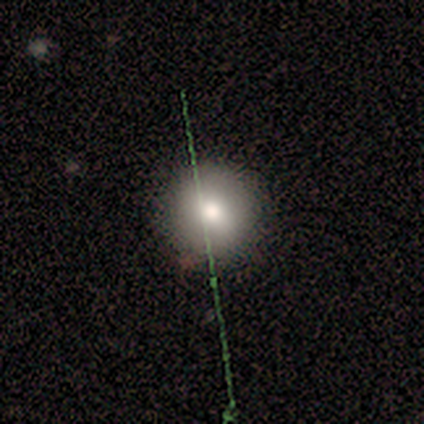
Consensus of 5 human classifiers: smooth_or_featured: smooth (p=0.60) [alt: featured or disk p=0.20]
how_rounded: round (p=1.00)
merging: none (p=0.75) [alt: minor disturbance p=0.25]